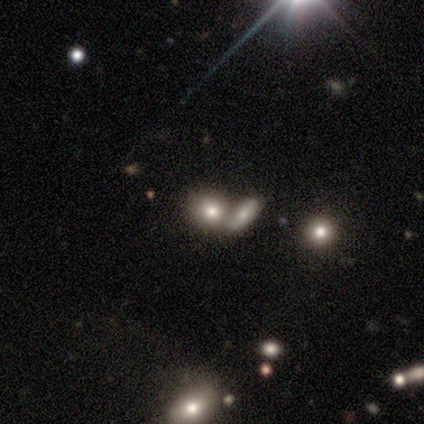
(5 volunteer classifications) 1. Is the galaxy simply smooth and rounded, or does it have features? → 100% smooth, 0% featured or disk, 0% star or artifact.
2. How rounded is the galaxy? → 80% in between, 20% round, 0% cigar-shaped.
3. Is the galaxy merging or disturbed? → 60% none, 40% merger, 0% minor disturbance, 0% major disturbance.